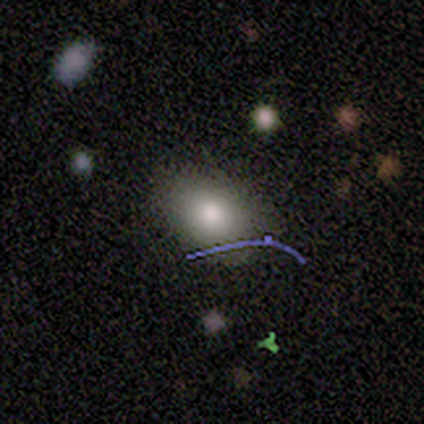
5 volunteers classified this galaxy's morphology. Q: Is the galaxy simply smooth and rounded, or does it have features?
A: smooth — 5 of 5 (100%).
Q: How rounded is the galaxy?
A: in between — 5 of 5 (100%).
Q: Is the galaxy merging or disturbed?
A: none — 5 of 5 (100%).